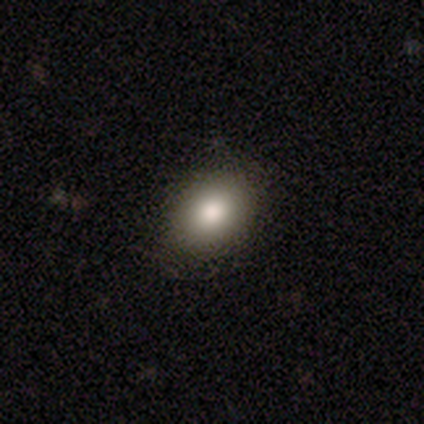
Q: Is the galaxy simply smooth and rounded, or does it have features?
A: smooth — 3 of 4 (75%).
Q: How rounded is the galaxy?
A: round — 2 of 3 (67%).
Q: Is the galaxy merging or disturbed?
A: none — 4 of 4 (100%).